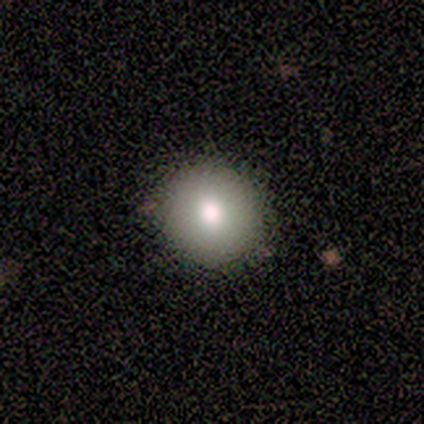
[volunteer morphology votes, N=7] A smooth galaxy with no disk features (100%) that is round (100%).

Vote fractions:
- Smooth or featured? smooth: 100% / featured or disk: 0% / star or artifact: 0%
- How rounded? round: 100% / in between: 0% / cigar-shaped: 0%
- Merging? none: 100% / minor disturbance: 0% / major disturbance: 0% / merger: 0%